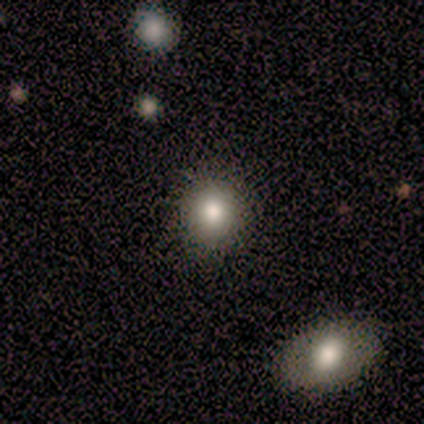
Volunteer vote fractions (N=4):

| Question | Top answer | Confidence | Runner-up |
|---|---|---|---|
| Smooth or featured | smooth | 50% | featured or disk (25%) |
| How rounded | round | 50% | tied: in between (50%) |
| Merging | none | 100% | — |